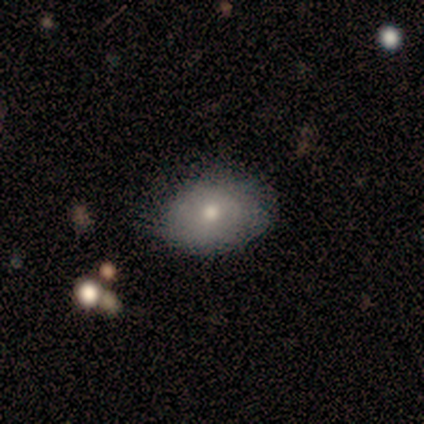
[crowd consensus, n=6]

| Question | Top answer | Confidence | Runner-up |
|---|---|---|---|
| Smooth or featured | smooth | 67% | featured or disk (17%) |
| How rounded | in between | 100% | — |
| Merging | none | 100% | — |